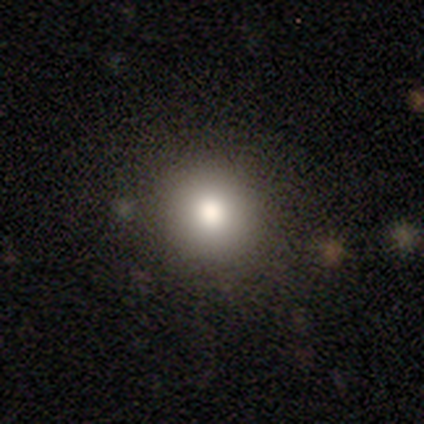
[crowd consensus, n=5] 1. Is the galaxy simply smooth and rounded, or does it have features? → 60% smooth, 40% star or artifact, 0% featured or disk.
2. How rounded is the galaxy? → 100% round, 0% in between, 0% cigar-shaped.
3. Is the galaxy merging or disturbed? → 100% none, 0% minor disturbance, 0% major disturbance, 0% merger.